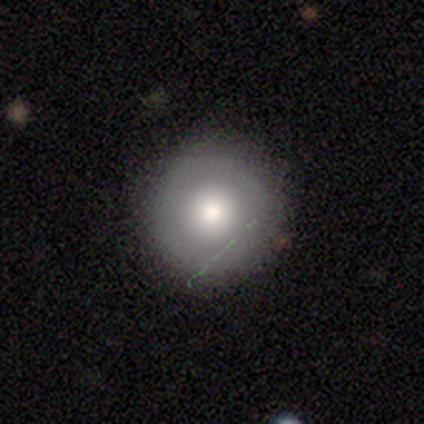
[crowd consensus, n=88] Q: Smooth or featured?
A: smooth (75%); runner-up: featured or disk (17%)
Q: How rounded?
A: round (98%); runner-up: in between (2%)
Q: Merging?
A: none (83%); runner-up: minor disturbance (14%)